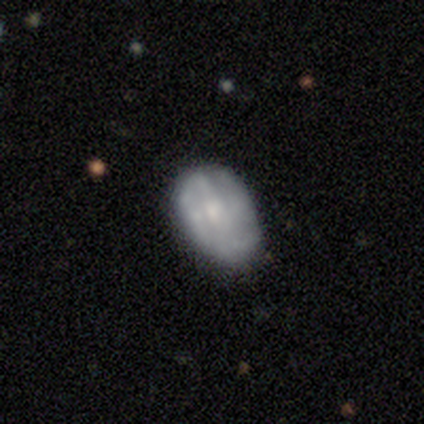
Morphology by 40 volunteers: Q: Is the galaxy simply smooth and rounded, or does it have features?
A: featured or disk — 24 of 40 (60%).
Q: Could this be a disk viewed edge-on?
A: no — 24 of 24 (100%).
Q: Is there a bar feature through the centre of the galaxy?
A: no — 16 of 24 (67%).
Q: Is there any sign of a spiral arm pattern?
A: yes — 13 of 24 (54%).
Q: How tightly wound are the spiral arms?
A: tight — 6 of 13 (46%).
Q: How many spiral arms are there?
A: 2 — 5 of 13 (38%).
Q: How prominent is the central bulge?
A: small — 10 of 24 (42%).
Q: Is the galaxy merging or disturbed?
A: none — 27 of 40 (68%).